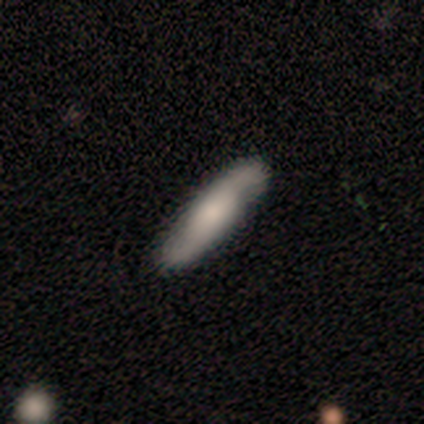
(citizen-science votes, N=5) featured or disk 60%, smooth 40%, star or artifact 0%. Down the decision tree: edge-on disk — yes (100%); edge-on bulge — boxy (67%); merging — none (80%).